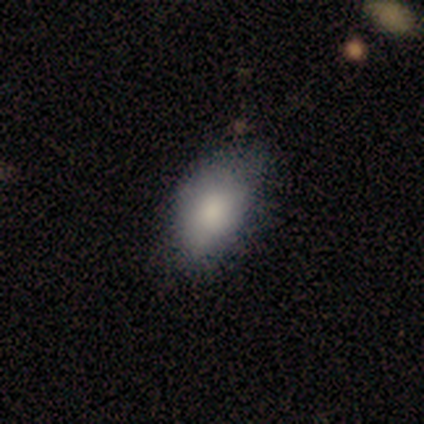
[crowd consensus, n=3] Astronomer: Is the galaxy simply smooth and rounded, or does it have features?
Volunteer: smooth — 100%.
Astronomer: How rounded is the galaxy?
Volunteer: in between — 100%.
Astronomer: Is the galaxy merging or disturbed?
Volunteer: none — 100%.